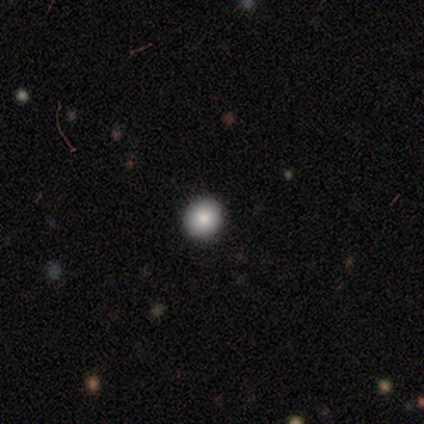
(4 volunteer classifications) Smooth or featured? 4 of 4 (100%) said smooth. How rounded? 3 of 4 (75%) said round. Merging? 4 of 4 (100%) said none.